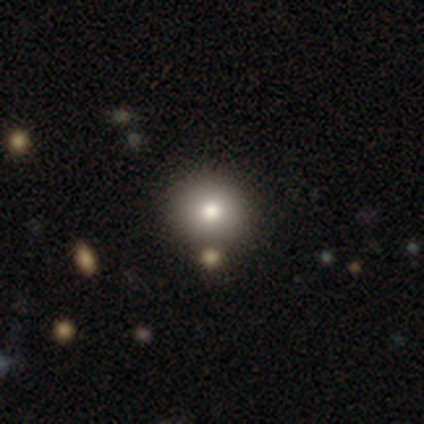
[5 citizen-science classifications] This appears to be a star or artifact, not a galaxy (60%).